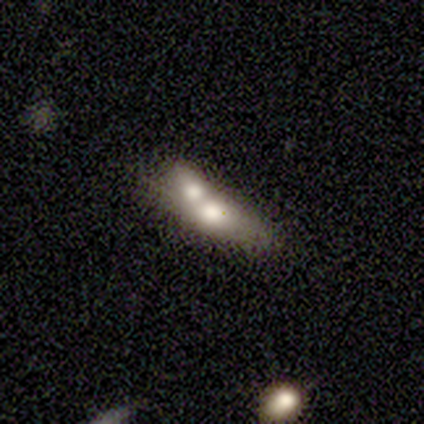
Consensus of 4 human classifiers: Overall: smooth (75%). How rounded: in between (67%; cigar-shaped 33%). Merging: merger (100%).